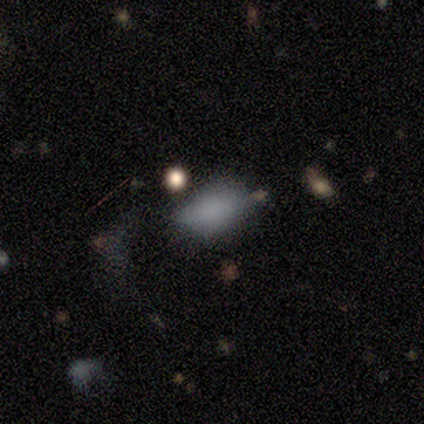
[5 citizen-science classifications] Overall: smooth (100%). How rounded: in between (100%). Merging: none (80%).